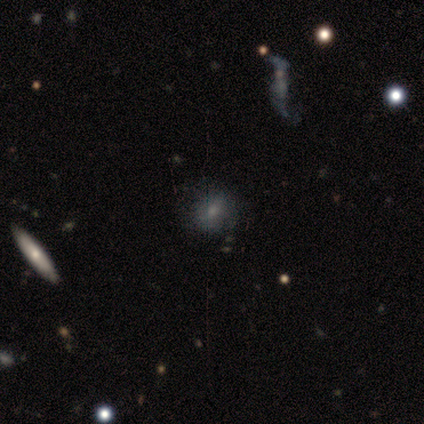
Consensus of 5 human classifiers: Q: Smooth or featured?
A: featured or disk (60%); runner-up: smooth (40%)
Q: Edge-on disk?
A: no (67%); runner-up: yes (33%)
Q: Bar?
A: no (100%)
Q: Spiral arms?
A: yes (100%)
Q: Spiral winding?
A: loose (100%)
Q: Spiral arm count?
A: 1 (50%); tied with: can't tell (50%)
Q: Bulge size?
A: none (100%)
Q: Merging?
A: none (40%); tied with: minor disturbance (40%)